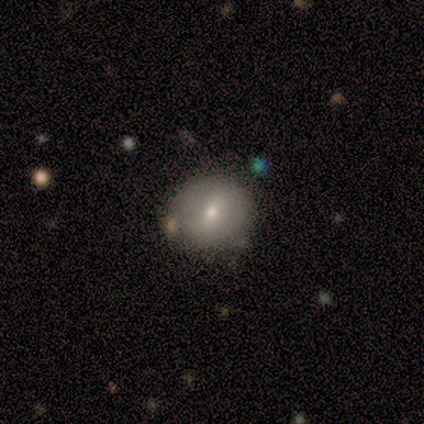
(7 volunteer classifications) This is likely a featured or disk galaxy (71%). It is clearly not viewed edge-on (80%). Bar: possibly weak (50%). Spiral arm pattern: likely yes (75%). Spiral arm count: marginally 1 (33%, tied with 2 and can't tell). Spiral winding: likely tight (67%). Central bulge: likely moderate (75%). Merging: clearly none (100%).